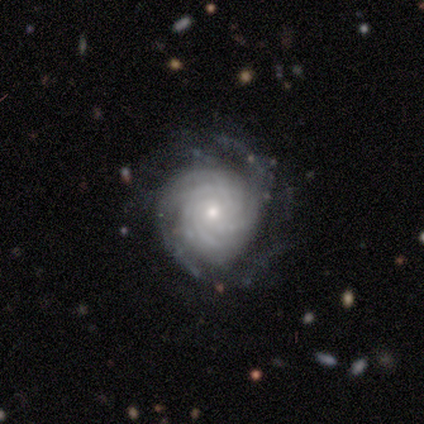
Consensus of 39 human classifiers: Smooth or featured?
  - featured or disk: 95% *
  - smooth: 3%
  - star or artifact: 3%
Edge-on disk?
  - no: 97% *
  - yes: 3%
Bar?
  - no: 86% *
  - weak: 11%
  - strong: 3%
Spiral arms?
  - yes: 100% *
  - no: 0%
Spiral winding?
  - tight: 89% *
  - medium: 11%
  - loose: 0%
Spiral arm count?
  - more than 4: 50% *
  - can't tell: 22%
  - 3: 14%
  - 4: 14%
  - 1: 0%
  - 2: 0%
Bulge size?
  - small: 61% *
  - moderate: 39%
  - dominant: 0%
  - large: 0%
  - none: 0%
Merging?
  - none: 74% *
  - minor disturbance: 16%
  - major disturbance: 8%
  - merger: 3%